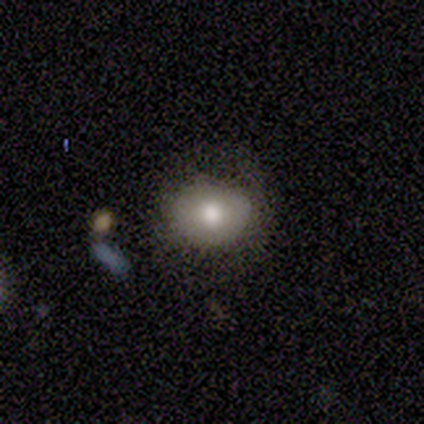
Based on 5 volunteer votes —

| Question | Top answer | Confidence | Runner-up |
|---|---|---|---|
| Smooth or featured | smooth | 100% | — |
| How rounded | round | 60% | in between (40%) |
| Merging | none | 60% | minor disturbance (20%) |